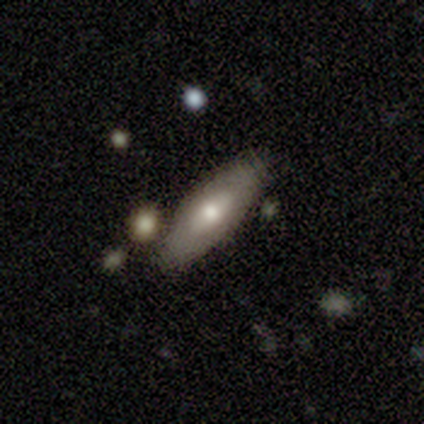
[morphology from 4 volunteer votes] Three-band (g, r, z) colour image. It shows a featured or disk galaxy (75%) with a weak bar (50%, tied with no), no spiral arms (100%) and a moderate central bulge (100%). Merging: none (50%).